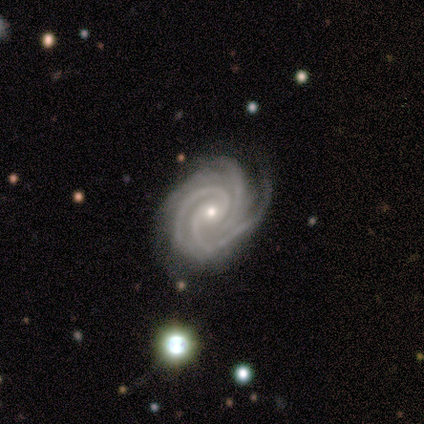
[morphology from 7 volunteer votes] Smooth or featured? 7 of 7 (100%) said featured or disk. Edge-on disk? 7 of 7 (100%) said no. Bar? 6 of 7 (86%) said no. Spiral arms? 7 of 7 (100%) said yes. Spiral winding? 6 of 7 (86%) said tight. Spiral arm count? 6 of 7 (86%) said 3. Bulge size? 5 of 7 (71%) said small. Merging? 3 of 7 (43%, tied with minor disturbance) said none.